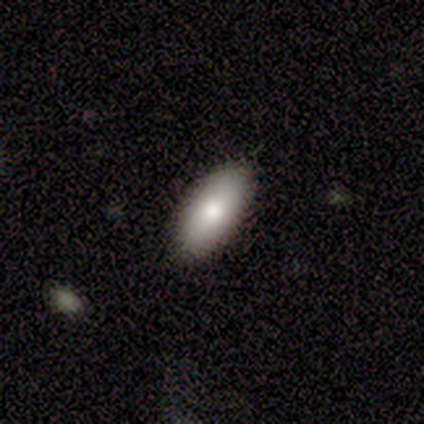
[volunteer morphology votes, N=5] A smooth galaxy with no disk features (80%) that is in between round and cigar-shaped (100%).

Vote fractions:
- Smooth or featured? smooth: 80% / featured or disk: 20% / star or artifact: 0%
- How rounded? in between: 100% / round: 0% / cigar-shaped: 0%
- Merging? none: 100% / minor disturbance: 0% / major disturbance: 0% / merger: 0%